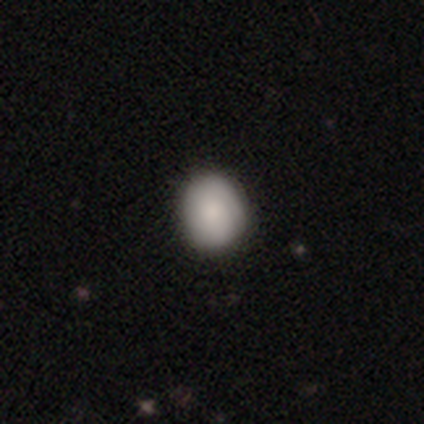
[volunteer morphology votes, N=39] type=smooth (87%); roundness=round (74%); merging=none (71%).